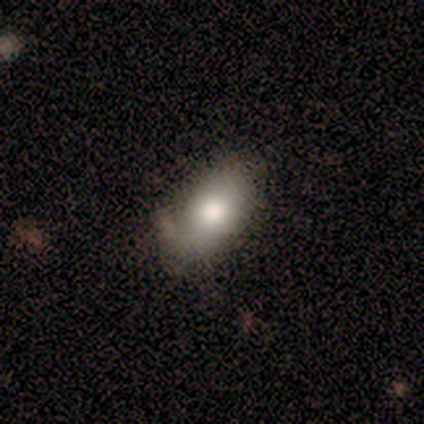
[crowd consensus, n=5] Q: Smooth or featured?
A: featured or disk (60%); runner-up: smooth (40%)
Q: Edge-on disk?
A: no (67%); runner-up: yes (33%)
Q: Bar?
A: no (100%)
Q: Spiral arms?
A: no (100%)
Q: Bulge size?
A: moderate (100%)
Q: Merging?
A: none (100%)